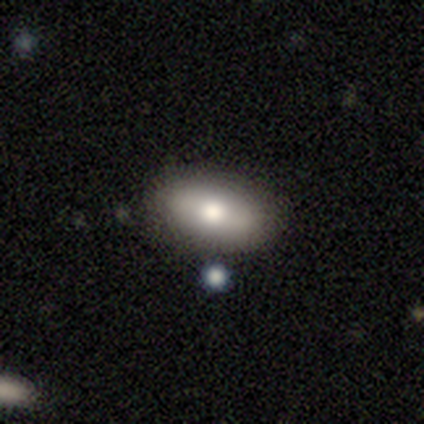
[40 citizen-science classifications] Smooth or featured? smooth (62%)
How rounded? in between (84%)
Merging? none (86%)